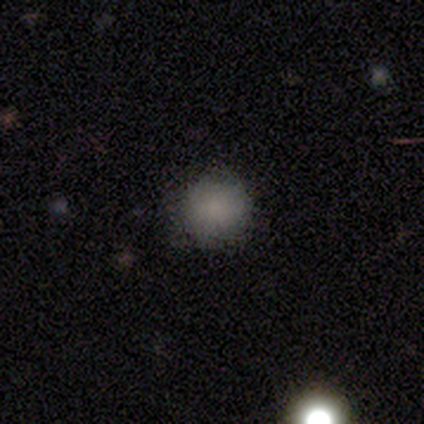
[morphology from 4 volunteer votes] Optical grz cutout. It shows a smooth galaxy with no disk features (75%) that is round (100%). Merging: none (100%).